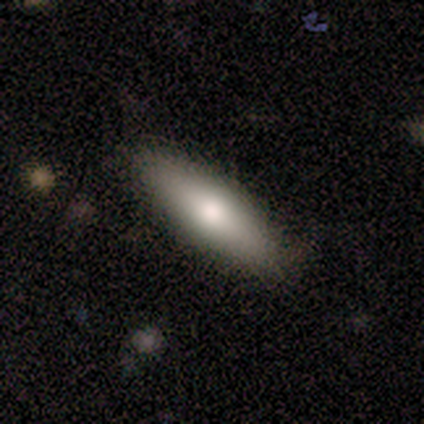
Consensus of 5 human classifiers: Q: Smooth or featured?
A: smooth (80%); runner-up: star or artifact (20%)
Q: How rounded?
A: cigar-shaped (100%)
Q: Merging?
A: none (100%)